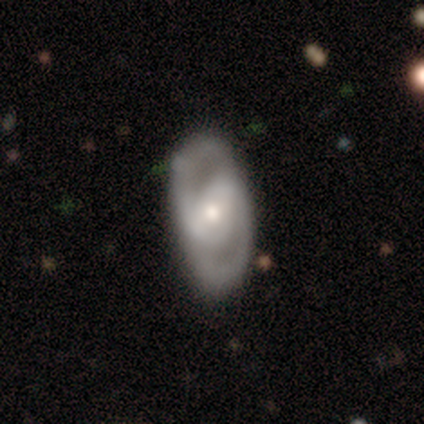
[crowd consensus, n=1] This is clearly a featured or disk galaxy (100%). It is clearly not viewed edge-on (100%). Bar: clearly no (100%). Spiral arm pattern: clearly yes (100%). Spiral arm count: clearly 2 (100%). Spiral winding: clearly tight (100%). Central bulge: clearly moderate (100%). Merging: clearly none (100%).